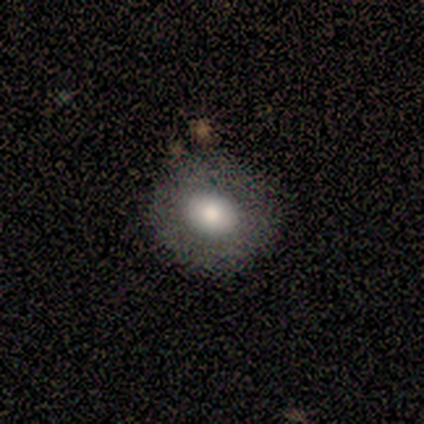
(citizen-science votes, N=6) Morphology: type=smooth (50%); roundness=round (67%); merging=none (100%).